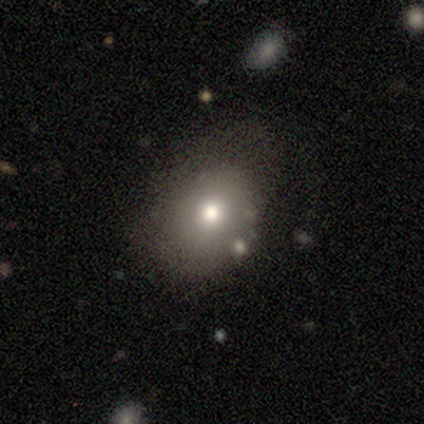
Smooth or featured? 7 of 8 (88%) said smooth. How rounded? 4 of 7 (57%) said in between. Merging? 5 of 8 (62%) said none.